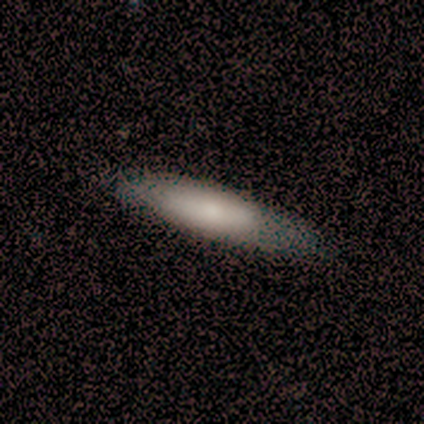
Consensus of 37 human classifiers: Smooth or featured?
  - smooth: 73% *
  - featured or disk: 24%
  - star or artifact: 3%
How rounded?
  - cigar-shaped: 63% *
  - in between: 37%
  - round: 0%
Merging?
  - none: 61% *
  - minor disturbance: 8%
  - major disturbance: 8%
  - merger: 0%